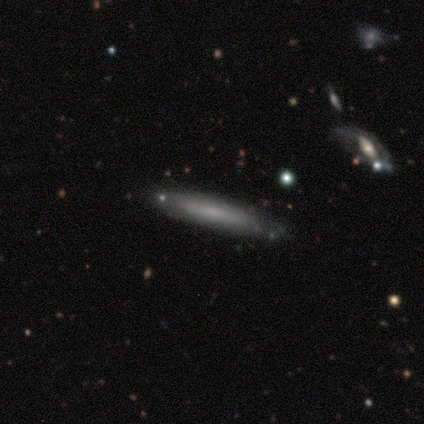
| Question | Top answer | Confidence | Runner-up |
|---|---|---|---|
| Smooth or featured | smooth | 50% | tied: featured or disk (50%) |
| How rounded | cigar-shaped | 100% | — |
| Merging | none | 75% | minor disturbance (25%) |